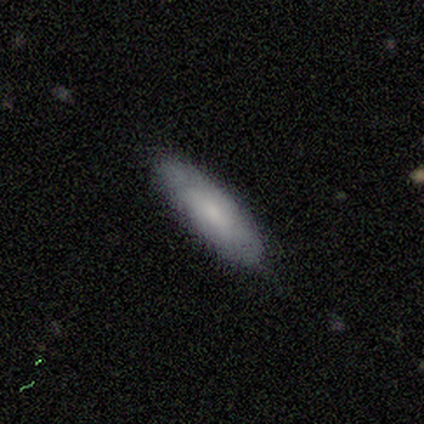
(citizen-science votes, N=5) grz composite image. It shows a smooth galaxy with no disk features (60%) that is in between round and cigar-shaped (100%). Merging: none (80%).